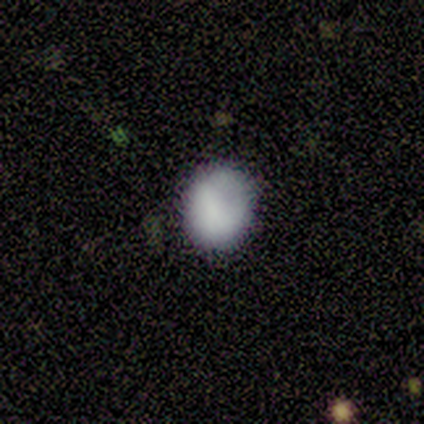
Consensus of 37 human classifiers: smooth 81%, featured or disk 11%, star or artifact 8%. Down the decision tree: how rounded — round (73%); merging — none (85%).